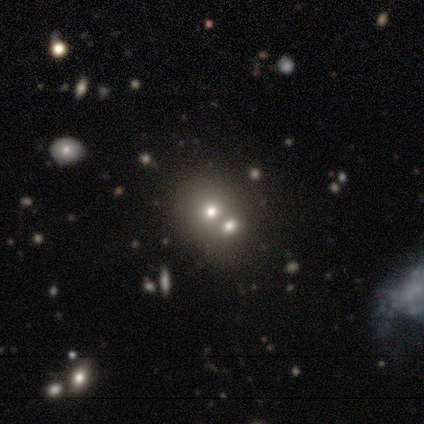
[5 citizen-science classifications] Volunteers were most divided on "how rounded" (2-way tie): round: 50%, in between: 50%, cigar-shaped: 0%. More confident: smooth or featured — smooth (80%); merging — merger (60%).